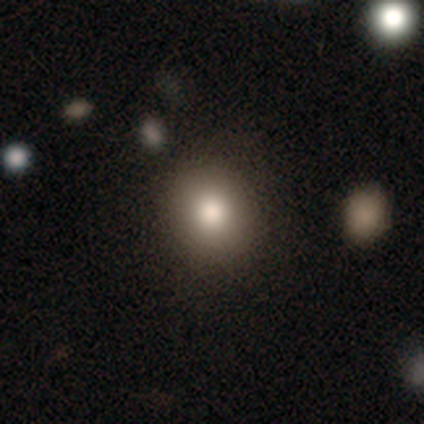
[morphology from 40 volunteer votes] Volunteers were most divided on "smooth or featured": smooth: 70%, featured or disk: 18%, star or artifact: 12%. More confident: merging — none (89%); how rounded — round (79%).